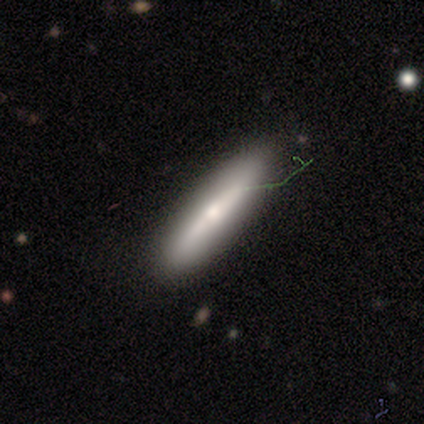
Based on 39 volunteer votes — Q: Smooth or featured?
A: smooth (51%); runner-up: featured or disk (41%)
Q: How rounded?
A: cigar-shaped (80%); runner-up: in between (20%)
Q: Merging?
A: none (86%); runner-up: minor disturbance (6%)